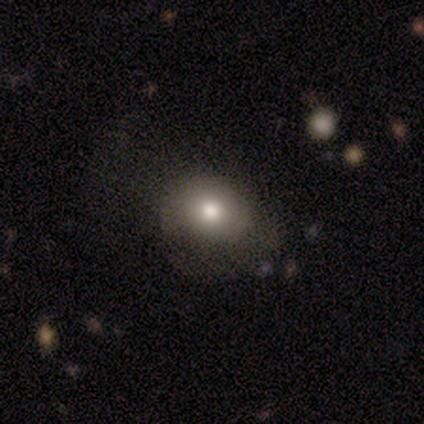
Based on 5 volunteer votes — A smooth galaxy with no disk features (100%) that is round (60%).

Vote fractions:
- Smooth or featured? smooth: 100% / featured or disk: 0% / star or artifact: 0%
- How rounded? round: 60% / in between: 40% / cigar-shaped: 0%
- Merging? none: 80% / minor disturbance: 20% / major disturbance: 0% / merger: 0%